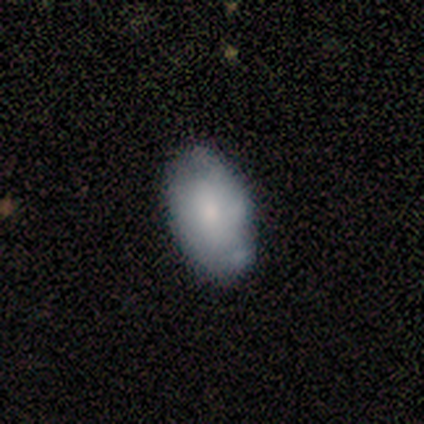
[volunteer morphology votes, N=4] smooth_or_featured: smooth (p=0.50) [tied with: featured or disk p=0.50]
how_rounded: in between (p=1.00)
merging: none (p=0.50) [alt: minor disturbance p=0.25]